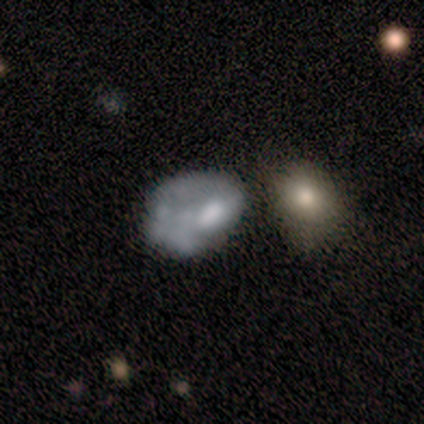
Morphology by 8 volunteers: Volunteers were most divided on "smooth or featured" (2-way tie): smooth: 50%, featured or disk: 50%, star or artifact: 0%. Remaining: how rounded — in between (100%); merging — major disturbance (38%).